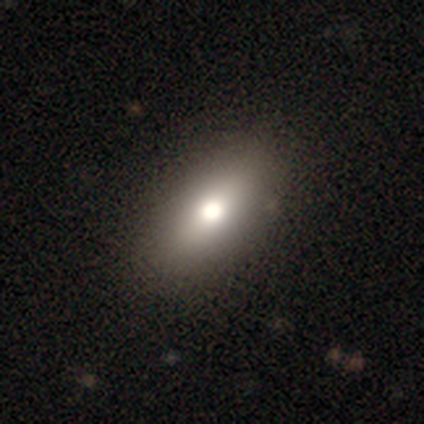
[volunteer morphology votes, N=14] Smooth or featured? smooth (93%)
How rounded? in between (100%)
Merging? none (93%)